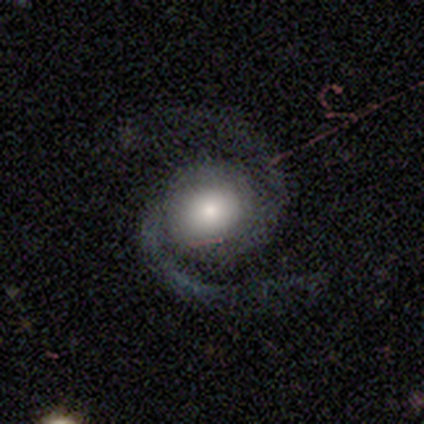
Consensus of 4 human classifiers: Smooth or featured? 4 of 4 (100%) said featured or disk. Edge-on disk? 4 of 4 (100%) said no. Bar? 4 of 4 (100%) said no. Spiral arms? 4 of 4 (100%) said yes. Spiral winding? 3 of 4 (75%) said medium. Spiral arm count? 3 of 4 (75%) said 2. Bulge size? 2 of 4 (50%) said moderate. Merging? 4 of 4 (100%) said none.